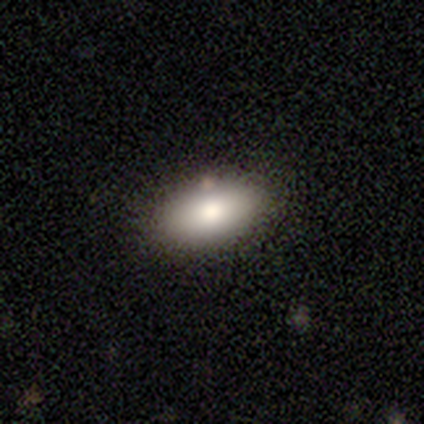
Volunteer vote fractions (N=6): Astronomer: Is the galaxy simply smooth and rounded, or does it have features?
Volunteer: smooth — 67%.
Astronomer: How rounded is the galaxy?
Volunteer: in between — 100%.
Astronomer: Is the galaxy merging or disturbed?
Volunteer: none — 100%.